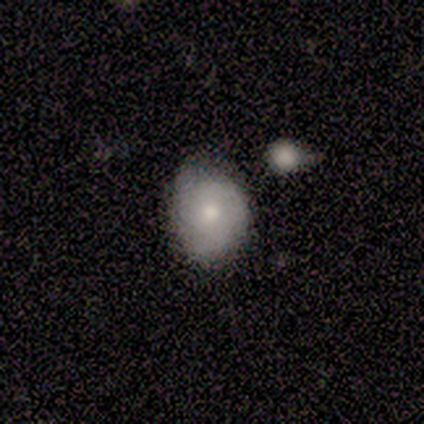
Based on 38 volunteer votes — This is possibly a smooth galaxy (53%). How rounded: possibly round (50%, tied with in between). Merging: likely none (71%).